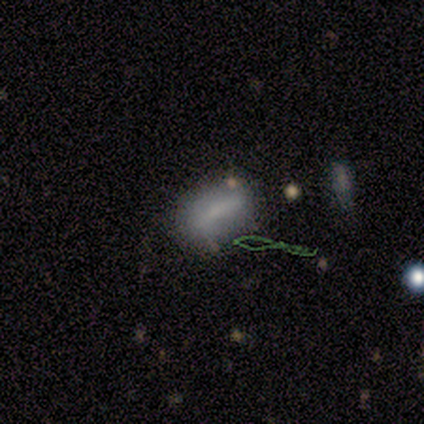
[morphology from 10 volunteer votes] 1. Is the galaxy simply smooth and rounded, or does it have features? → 70% smooth, 20% star or artifact, 10% featured or disk.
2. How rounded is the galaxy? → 86% in between, 14% cigar-shaped, 0% round.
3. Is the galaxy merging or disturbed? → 75% none, 12% minor disturbance, 12% major disturbance, 0% merger.